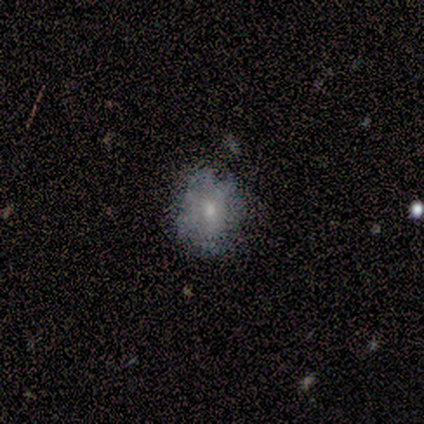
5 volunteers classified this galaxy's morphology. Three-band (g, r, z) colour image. It shows a smooth galaxy with no disk features (100%) that is round (60%). Merging: none (100%).